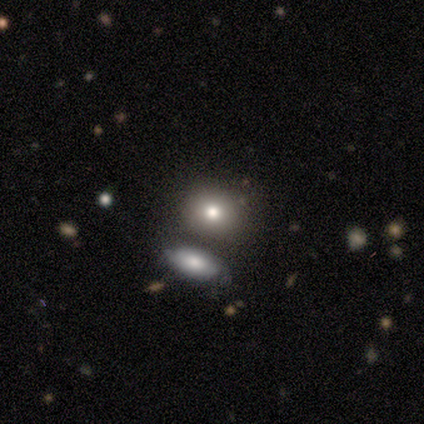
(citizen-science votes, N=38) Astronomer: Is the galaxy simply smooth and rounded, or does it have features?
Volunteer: smooth — 74%.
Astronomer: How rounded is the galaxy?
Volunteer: round — 54% (runner-up: in between, 46%).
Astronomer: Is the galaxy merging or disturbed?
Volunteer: none — 69%.